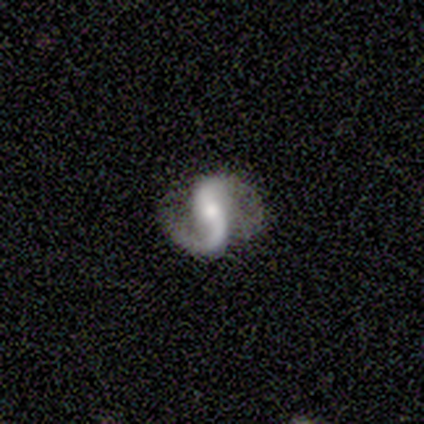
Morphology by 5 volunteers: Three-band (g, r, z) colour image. It shows a featured or disk galaxy (100%) with no bar (60%), 2 (100%) loose (60%) spiral arms (100%) and a moderate central bulge (60%). Merging: none (100%).